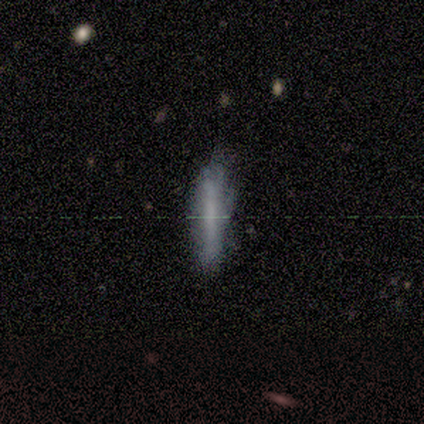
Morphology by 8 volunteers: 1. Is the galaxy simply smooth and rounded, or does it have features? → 50% smooth, 38% featured or disk, 12% star or artifact.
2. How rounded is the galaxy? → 100% cigar-shaped, 0% round, 0% in between.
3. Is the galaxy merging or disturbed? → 57% none, 29% major disturbance, 14% minor disturbance, 0% merger.